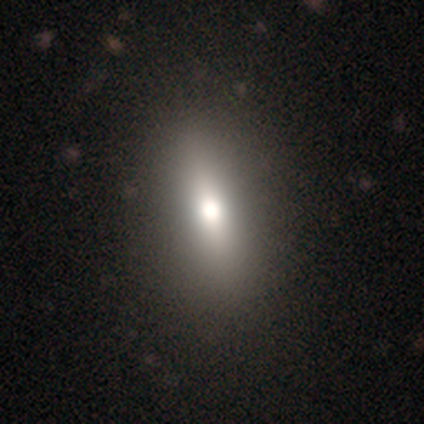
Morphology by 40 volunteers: Q: Smooth or featured?
A: smooth (68%); runner-up: featured or disk (20%)
Q: How rounded?
A: in between (63%); runner-up: cigar-shaped (37%)
Q: Merging?
A: none (83%)